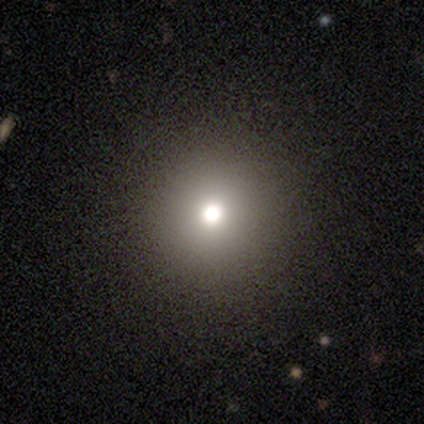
A featured or disk galaxy (40%, tied with star or artifact) with a weak bar (50%, tied with no), 2 (100%) tight (100%) spiral arms (50%, tied with no) and a large central bulge (50%, tied with moderate).

Vote fractions:
- Smooth or featured? featured or disk: 40% (tied) / star or artifact: 40% (tied) / smooth: 20%
- Edge-on disk? no: 100% / yes: 0%
- Bar? weak: 50% (tied) / no: 50% (tied) / strong: 0%
- Spiral arms? yes: 50% (tied) / no: 50% (tied)
- Spiral winding? tight: 100% / medium: 0% / loose: 0%
- Spiral arm count? 2: 100% / 1: 0% / 3: 0% / 4: 0% / more than 4: 0% / can't tell: 0%
- Bulge size? large: 50% (tied) / moderate: 50% (tied) / dominant: 0% / small: 0% / none: 0%
- Merging? none: 67% / minor disturbance: 33% / major disturbance: 0% / merger: 0%